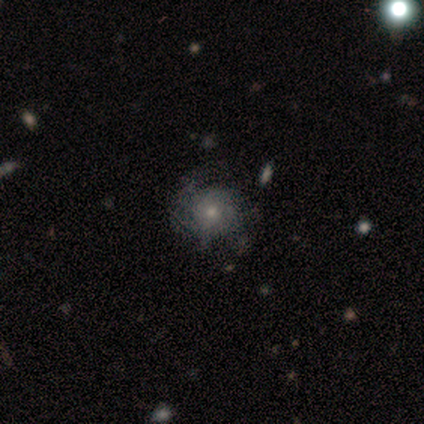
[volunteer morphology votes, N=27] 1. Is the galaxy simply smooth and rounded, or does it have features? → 67% featured or disk, 26% smooth, 7% star or artifact.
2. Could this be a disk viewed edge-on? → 100% no, 0% yes.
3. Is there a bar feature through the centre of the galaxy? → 89% no, 11% weak, 0% strong.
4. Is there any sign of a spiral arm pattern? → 56% yes, 44% no.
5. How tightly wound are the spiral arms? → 50% tight, 40% medium, 10% loose.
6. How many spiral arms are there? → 50% can't tell, 40% 2, 10% more than 4, 0% 1, 0% 3, 0% 4.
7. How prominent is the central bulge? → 50% small, 44% moderate, 6% dominant, 0% large, 0% none.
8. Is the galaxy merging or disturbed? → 60% none, 20% minor disturbance, 12% major disturbance, 8% merger.